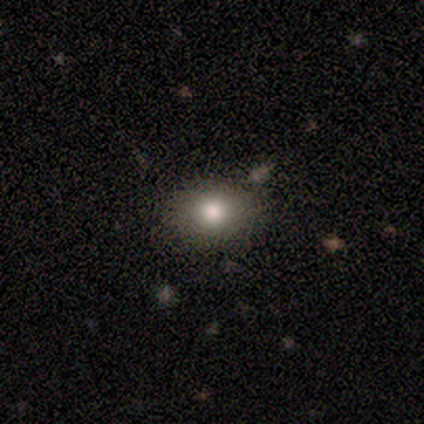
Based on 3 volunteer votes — This is clearly a smooth galaxy (100%). How rounded: clearly in between (100%). Merging: clearly none (100%).